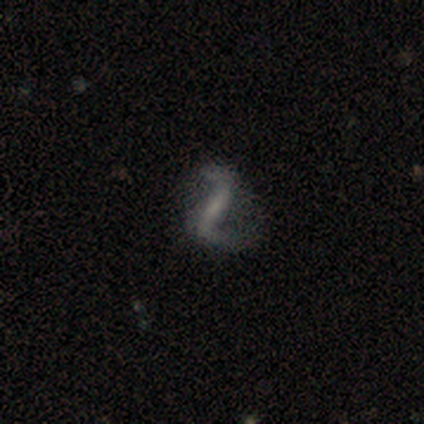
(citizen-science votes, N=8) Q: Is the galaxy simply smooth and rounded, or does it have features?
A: featured or disk — 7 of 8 (88%).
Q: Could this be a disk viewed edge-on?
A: no — 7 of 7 (100%).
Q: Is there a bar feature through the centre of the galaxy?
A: strong — 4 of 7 (57%).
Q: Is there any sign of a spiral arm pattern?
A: yes — 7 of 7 (100%).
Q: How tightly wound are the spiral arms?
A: loose — 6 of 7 (86%).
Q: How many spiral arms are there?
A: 2 — 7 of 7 (100%).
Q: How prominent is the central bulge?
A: none — 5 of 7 (71%).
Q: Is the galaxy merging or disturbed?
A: none — 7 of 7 (100%).